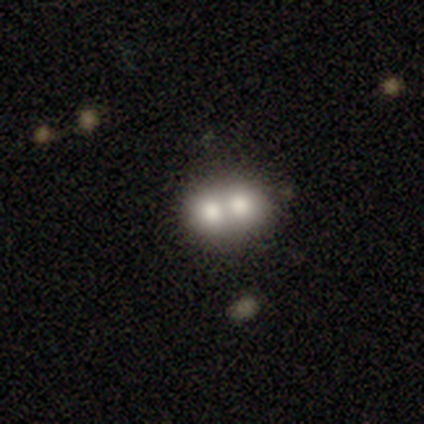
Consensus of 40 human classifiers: Smooth or featured? 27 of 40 (68%) said smooth. How rounded? 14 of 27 (52%) said in between. Merging? 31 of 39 (79%) said merger.